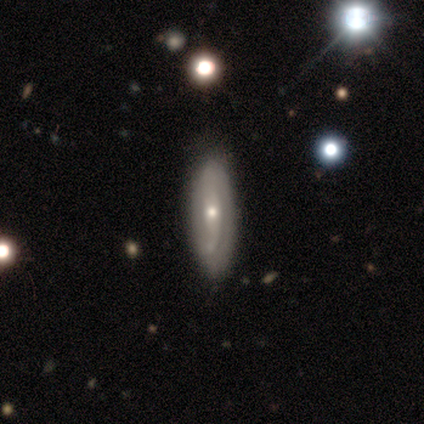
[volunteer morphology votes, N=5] type=featured or disk (60%); edge-on=yes (67%); edge-on bulge=none (50%, tied with rounded); merging=none (60%).